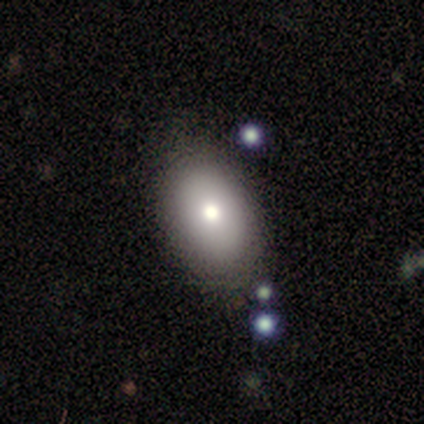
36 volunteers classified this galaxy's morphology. Overall: smooth (72%). How rounded: in between (85%). Merging: none (80%).